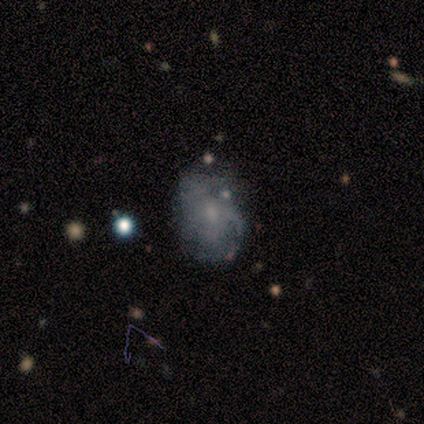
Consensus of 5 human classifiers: Smooth or featured?
  - featured or disk: 80% *
  - smooth: 20%
  - star or artifact: 0%
Edge-on disk?
  - no: 100% *
  - yes: 0%
Bar?
  - no: 75% *
  - weak: 25%
  - strong: 0%
Spiral arms?
  - yes: 50% * (tied)
  - no: 50% * (tied)
Spiral winding?
  - medium: 50% * (tied)
  - loose: 50% * (tied)
  - tight: 0%
Spiral arm count?
  - 1: 50% * (tied)
  - can't tell: 50% * (tied)
  - 2: 0%
  - 3: 0%
  - 4: 0%
  - more than 4: 0%
Bulge size?
  - small: 50% *
  - moderate: 25%
  - none: 25%
  - dominant: 0%
  - large: 0%
Merging?
  - none: 80% *
  - minor disturbance: 20%
  - major disturbance: 0%
  - merger: 0%